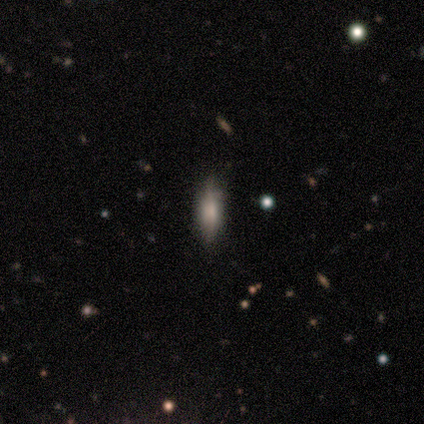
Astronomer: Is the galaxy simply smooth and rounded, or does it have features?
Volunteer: smooth — 100%.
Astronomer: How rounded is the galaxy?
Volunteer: in between — 60% (runner-up: cigar-shaped, 40%).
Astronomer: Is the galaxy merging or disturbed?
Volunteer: none — 60% (runner-up: minor disturbance, 40%).